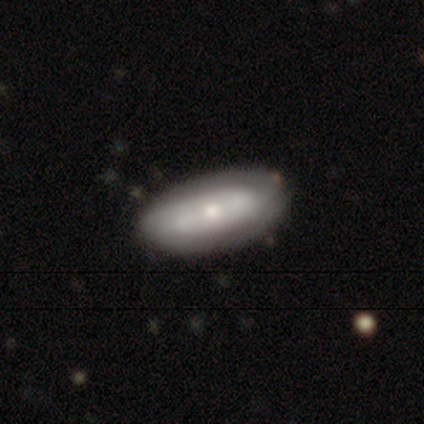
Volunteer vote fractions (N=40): This is possibly a featured or disk galaxy (55%). It is clearly not viewed edge-on (91%). Bar: clearly no (90%). Spiral arm pattern: likely yes (75%). Spiral arm count: likely 2 (60%). Spiral winding: likely tight (73%). Central bulge: likely moderate (60%). Merging: marginally none (41%).